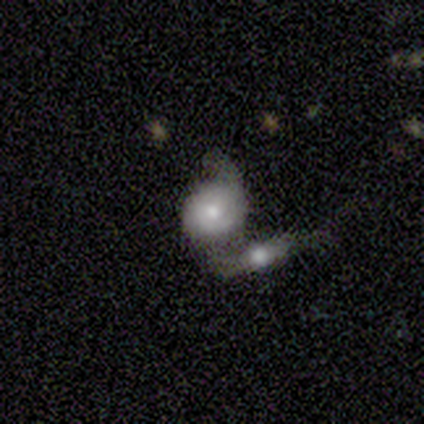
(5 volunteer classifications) Smooth or featured? featured or disk (100%)
Edge-on disk? no (100%)
Bar? no (100%)
Spiral arms? no (60%)
Bulge size? moderate (60%)
Merging? merger (60%)